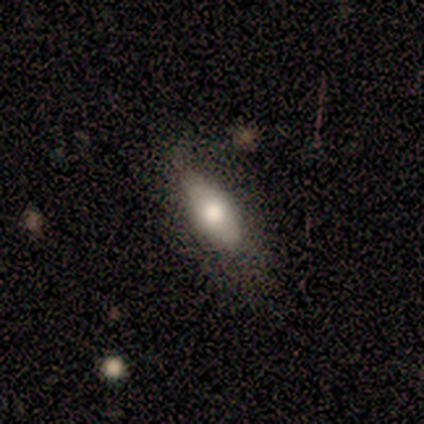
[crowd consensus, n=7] A smooth galaxy with no disk features (43%, tied with featured or disk) that is in between round and cigar-shaped (100%). Merging: none (83%).